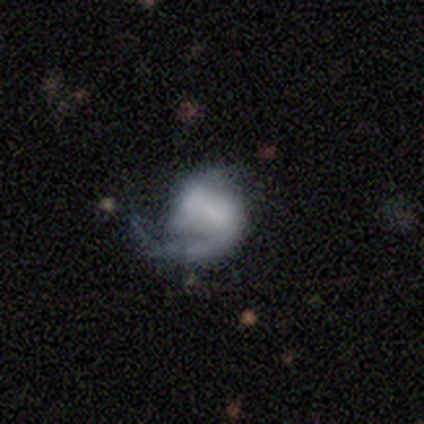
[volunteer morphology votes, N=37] Q: Smooth or featured?
A: featured or disk (81%); runner-up: smooth (14%)
Q: Edge-on disk?
A: no (100%)
Q: Bar?
A: no (63%); runner-up: strong (20%)
Q: Spiral arms?
A: yes (93%); runner-up: no (7%)
Q: Spiral winding?
A: tight (36%); tied with: loose (36%)
Q: Spiral arm count?
A: 1 (71%); runner-up: 2 (21%)
Q: Bulge size?
A: none (63%); runner-up: large (13%)
Q: Merging?
A: none (51%); runner-up: minor disturbance (26%)